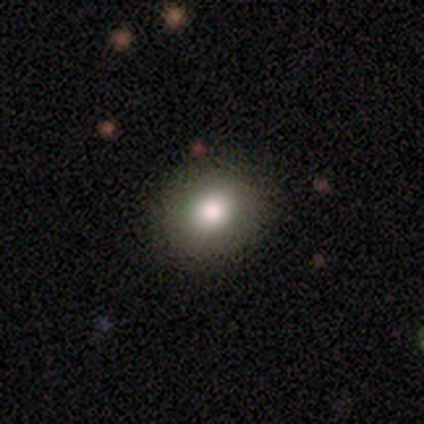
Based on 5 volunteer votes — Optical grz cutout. It shows a smooth galaxy with no disk features (100%) that is round (80%). Merging: none (80%).